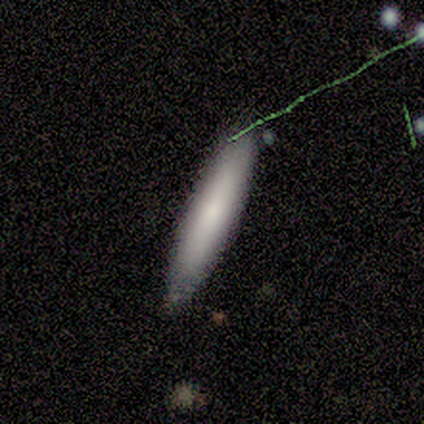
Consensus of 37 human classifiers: This appears to be a smooth galaxy with no disk features (70%) that is cigar-shaped (92%). Merging: none (88%).